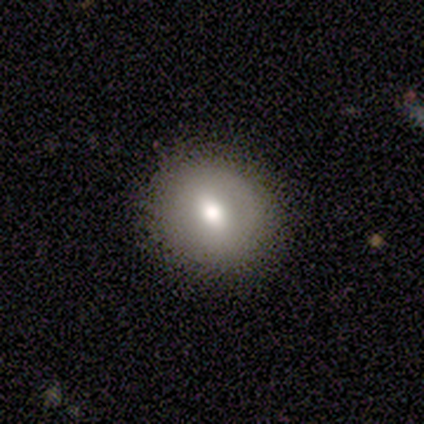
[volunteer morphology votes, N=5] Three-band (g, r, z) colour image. It shows a smooth galaxy with no disk features (80%) that is round (75%). Merging: none (100%).